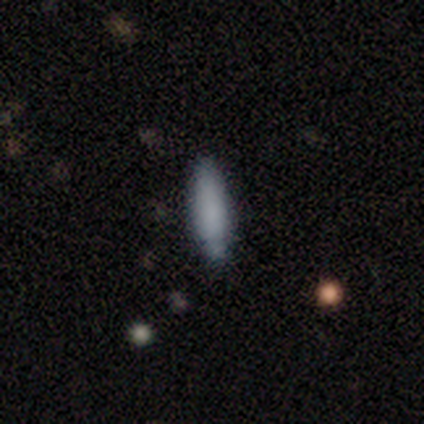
Smooth or featured? 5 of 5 (100%) said smooth. How rounded? 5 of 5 (100%) said cigar-shaped. Merging? 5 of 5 (100%) said none.